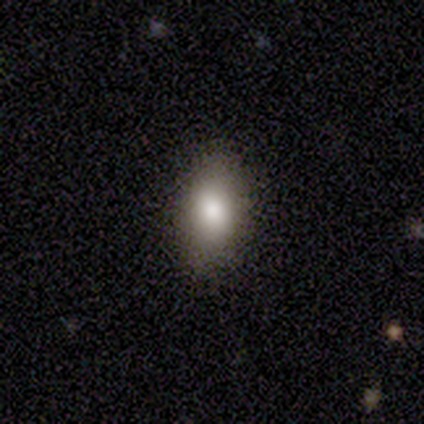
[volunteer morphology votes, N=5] smooth_or_featured: smooth (p=1.00)
how_rounded: in between (p=0.80) [alt: round p=0.20]
merging: none (p=1.00)